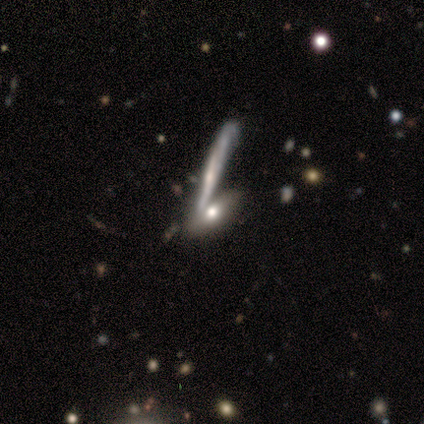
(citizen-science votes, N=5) Smooth or featured?
  - smooth: 60% *
  - featured or disk: 20%
  - star or artifact: 20%
How rounded?
  - in between: 67% *
  - cigar-shaped: 33%
  - round: 0%
Merging?
  - none: 75% *
  - merger: 25%
  - minor disturbance: 0%
  - major disturbance: 0%